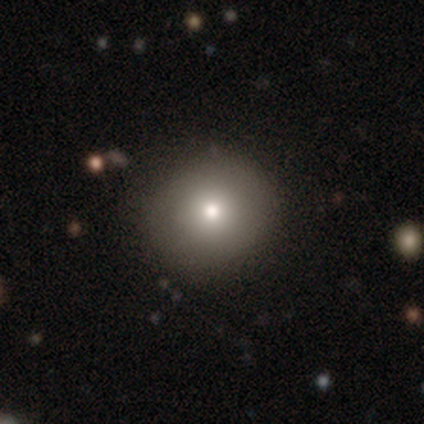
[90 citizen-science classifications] Morphology: type=smooth (74%); roundness=round (97%); merging=none (84%).